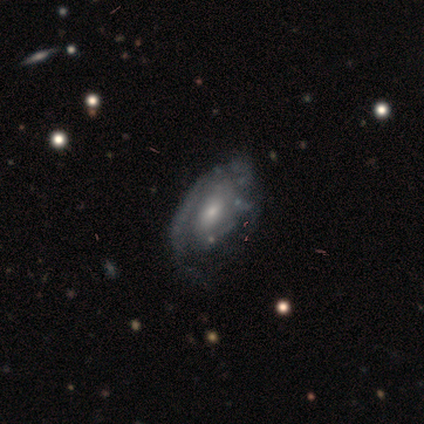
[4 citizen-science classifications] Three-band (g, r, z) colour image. It shows a featured or disk galaxy (100%) with no bar (75%), no spiral arms (75%) and a small central bulge (75%). Merging: none (50%, tied with minor disturbance).